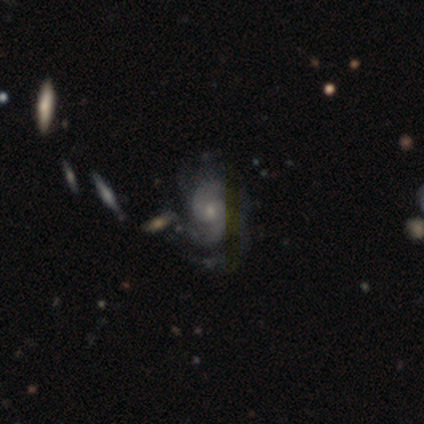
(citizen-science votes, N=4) Overall: featured or disk (100%). Edge-on disk: no (100%). Bar: weak (50%, tied with no). Spiral arms: yes (75%). Spiral arm count: 2 (33%, tied with 3 and can't tell). Spiral winding: medium (67%; loose 33%). Bulge size: small (75%). Merging: none (75%).